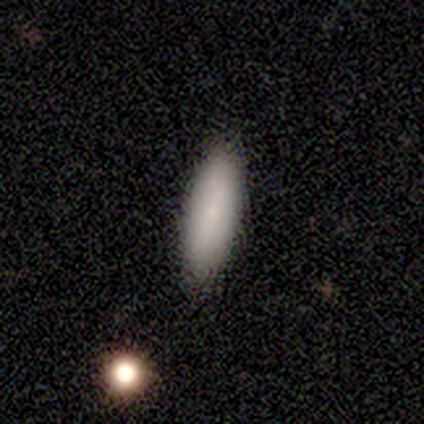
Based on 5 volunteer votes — Q: Smooth or featured?
A: smooth (80%); runner-up: star or artifact (20%)
Q: How rounded?
A: in between (50%); tied with: cigar-shaped (50%)
Q: Merging?
A: none (100%)